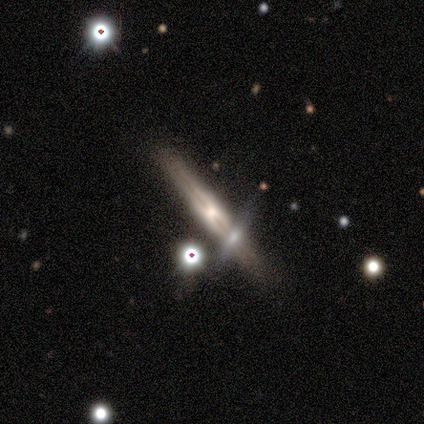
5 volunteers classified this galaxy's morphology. This is clearly a featured or disk galaxy (100%). It is clearly viewed edge-on (80%). Edge-on bulge: possibly rounded (50%). Merging: likely none (60%).